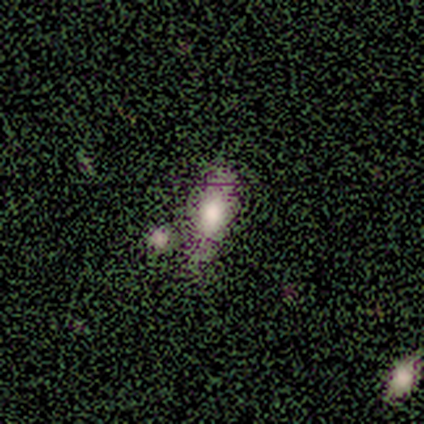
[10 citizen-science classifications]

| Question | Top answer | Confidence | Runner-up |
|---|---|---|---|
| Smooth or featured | smooth | 70% | featured or disk (20%) |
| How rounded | in between | 100% | — |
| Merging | none | 56% | minor disturbance (22%) |